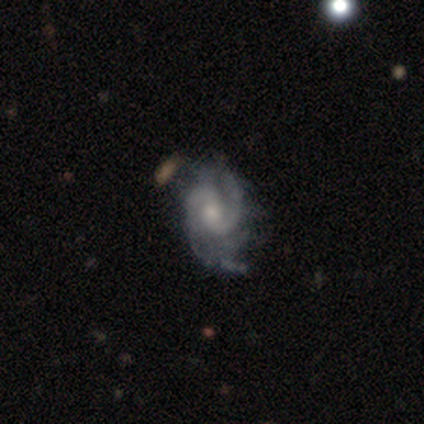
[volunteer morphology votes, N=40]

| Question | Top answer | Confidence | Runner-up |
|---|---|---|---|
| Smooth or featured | featured or disk | 98% | smooth (2%) |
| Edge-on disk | no | 100% | — |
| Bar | weak | 44% | no (41%) |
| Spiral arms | yes | 100% | — |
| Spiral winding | medium | 56% | tight (31%) |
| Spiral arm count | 2 | 85% | can't tell (8%) |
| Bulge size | moderate | 51% | small (33%) |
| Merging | none | 40% | minor disturbance (28%) |